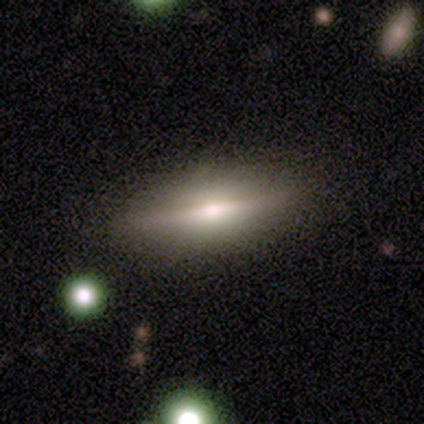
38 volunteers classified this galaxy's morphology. Overall: featured or disk (58%; smooth 37%). Edge-on disk: yes (100%). Edge-on bulge: rounded (91%). Merging: none (83%).